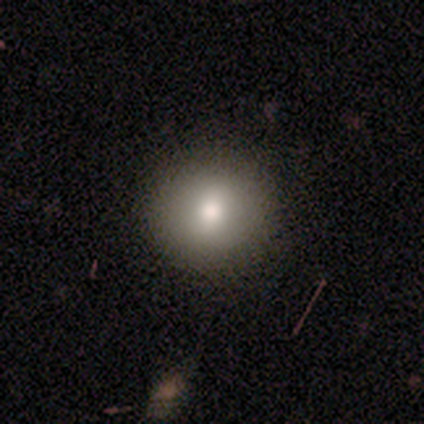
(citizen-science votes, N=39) smooth 79%, featured or disk 10%, star or artifact 10%. Down the decision tree: how rounded — round (90%); merging — none (89%).